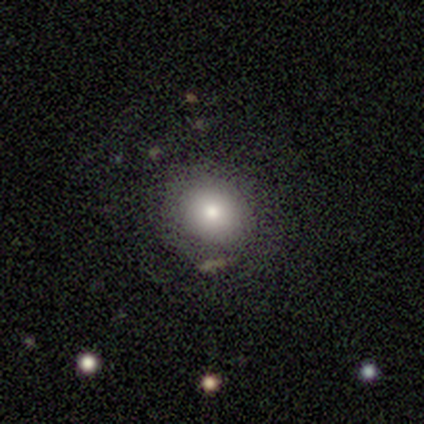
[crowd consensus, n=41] Smooth or featured? 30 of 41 (73%) said smooth. How rounded? 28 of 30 (93%) said round. Merging? 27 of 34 (79%) said none.